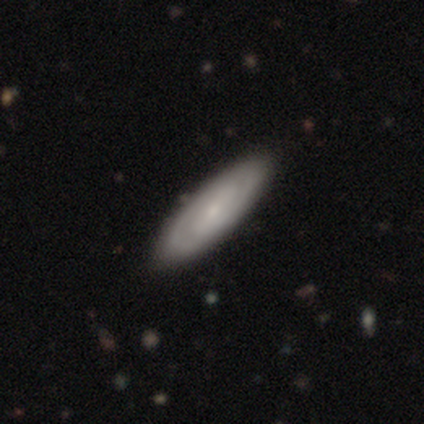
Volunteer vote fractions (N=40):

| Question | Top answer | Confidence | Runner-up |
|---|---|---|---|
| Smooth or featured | featured or disk | 57% | smooth (40%) |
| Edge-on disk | no | 87% | yes (13%) |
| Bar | no | 40% | weak (35%) |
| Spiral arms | yes | 90% | no (10%) |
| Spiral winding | tight | 67% | medium (28%) |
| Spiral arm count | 2 | 89% | can't tell (11%) |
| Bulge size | small | 60% | moderate (30%) |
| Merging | none | 64% | major disturbance (5%) |